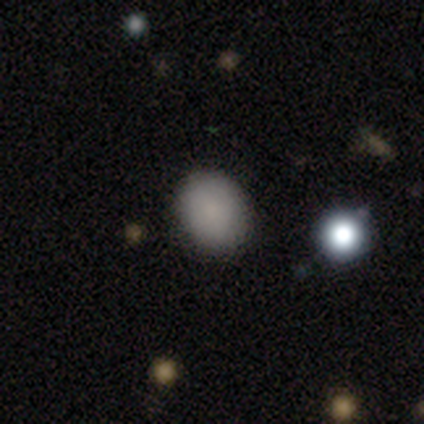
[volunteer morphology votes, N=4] smooth-or-featured: smooth: 100% | featured or disk: 0% | star or artifact: 0%
  how-rounded: round: 50% (tied) | in between: 50% (tied) | cigar-shaped: 0%
  merging: none: 100% | minor disturbance: 0% | major disturbance: 0% | merger: 0%